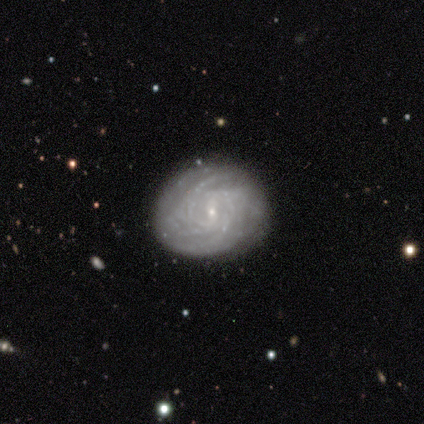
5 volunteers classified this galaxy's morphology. This is clearly a featured or disk galaxy (80%). It is clearly not viewed edge-on (100%). Bar: possibly strong (50%). Spiral arm pattern: clearly yes (100%). Spiral arm count: likely more than 4 (75%). Spiral winding: clearly tight (100%). Central bulge: likely small (75%). Merging: clearly none (80%).